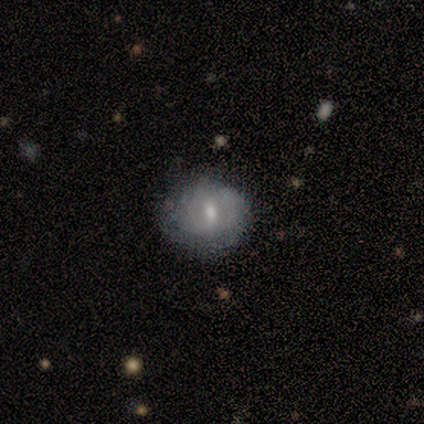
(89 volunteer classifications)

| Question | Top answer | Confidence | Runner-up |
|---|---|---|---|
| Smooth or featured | featured or disk | 47% | smooth (43%) |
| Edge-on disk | no | 93% | yes (7%) |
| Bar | weak | 51% | no (31%) |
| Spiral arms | yes | 59% | no (41%) |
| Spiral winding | tight | 61% | medium (26%) |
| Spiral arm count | can't tell | 70% | 2 (22%) |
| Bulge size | moderate | 54% | small (28%) |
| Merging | none | 64% | minor disturbance (24%) |